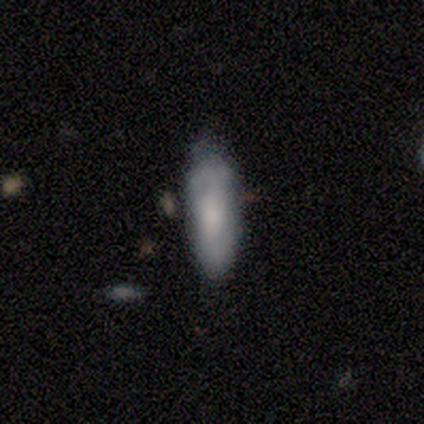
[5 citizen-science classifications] This appears to be a smooth galaxy with no disk features (80%) that is in between round and cigar-shaped (50%, tied with cigar-shaped). Merging: none (80%).